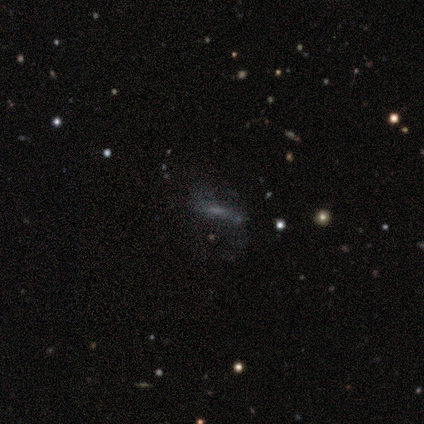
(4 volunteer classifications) This is possibly a smooth galaxy (50%, tied with featured or disk). How rounded: clearly cigar-shaped (100%). Merging: possibly none (50%).